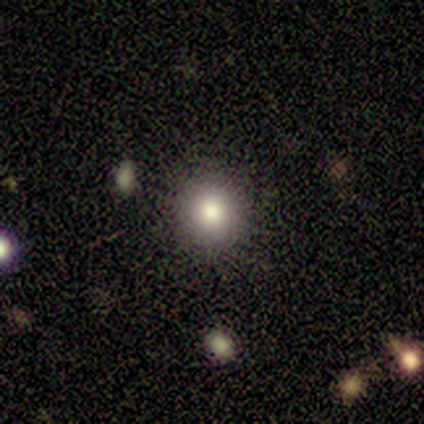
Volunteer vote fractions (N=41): Morphology: type=smooth (90%); roundness=round (92%); merging=none (84%).